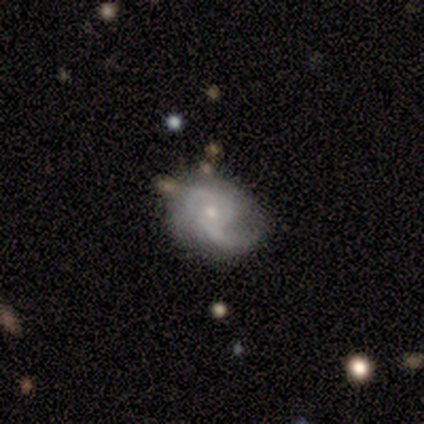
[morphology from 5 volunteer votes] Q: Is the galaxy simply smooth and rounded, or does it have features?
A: featured or disk — 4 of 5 (80%).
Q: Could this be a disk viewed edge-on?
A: no — 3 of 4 (75%).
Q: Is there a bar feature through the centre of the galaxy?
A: no — 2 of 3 (67%).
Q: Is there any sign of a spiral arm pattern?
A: yes — 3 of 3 (100%).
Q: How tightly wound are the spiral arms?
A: medium — 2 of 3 (67%).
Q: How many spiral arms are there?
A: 2 — 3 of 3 (100%).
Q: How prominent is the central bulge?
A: small — 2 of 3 (67%).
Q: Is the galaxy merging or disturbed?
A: none — 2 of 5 (40%, tied with minor disturbance).